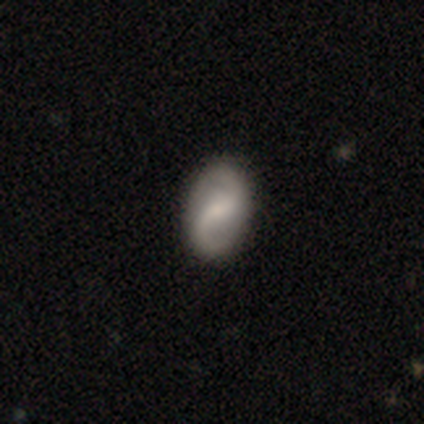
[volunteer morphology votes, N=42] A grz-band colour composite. It shows a featured or disk galaxy (64%) with a weak bar (65%), 2 (84%) loose (56%) spiral arms (96%) and a small central bulge (38%). Merging: none (89%).